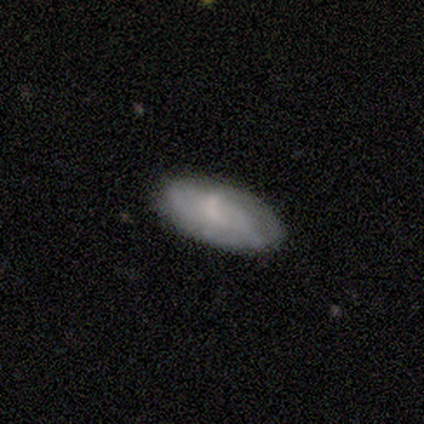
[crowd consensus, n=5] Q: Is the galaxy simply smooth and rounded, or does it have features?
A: smooth — 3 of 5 (60%).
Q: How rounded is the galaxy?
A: in between — 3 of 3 (100%).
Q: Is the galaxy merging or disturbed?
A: minor disturbance — 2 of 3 (67%).